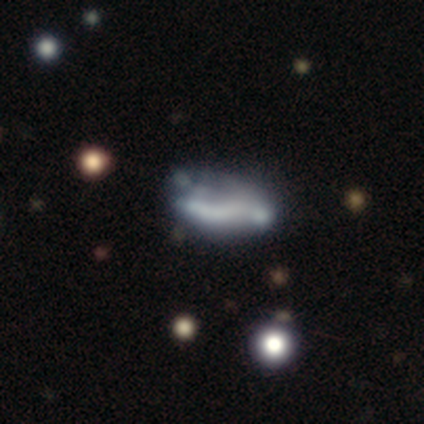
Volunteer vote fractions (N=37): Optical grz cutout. It shows a featured or disk galaxy (51%) with no bar (59%), no spiral arms (71%) and no central bulge (88%). Merging: none (38%).